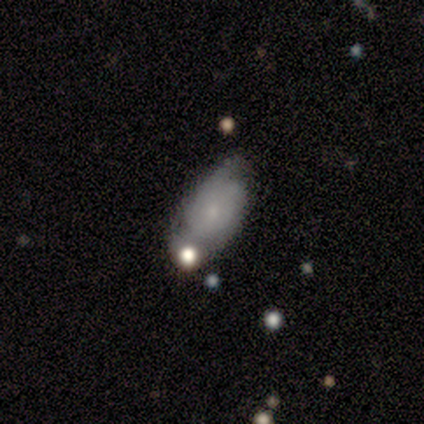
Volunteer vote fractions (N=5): Smooth or featured: featured or disk — 80% (smooth — 20%)
Edge-on disk: no — 100%
Bar: no — 75% (strong — 25%)
Spiral arms: yes — 100%
Spiral winding: tight — 50% (tied with medium — 50%)
Spiral arm count: 2 — 75% (can't tell — 25%)
Bulge size: small — 50% (moderate — 25%)
Merging: none — 60% (merger — 40%)